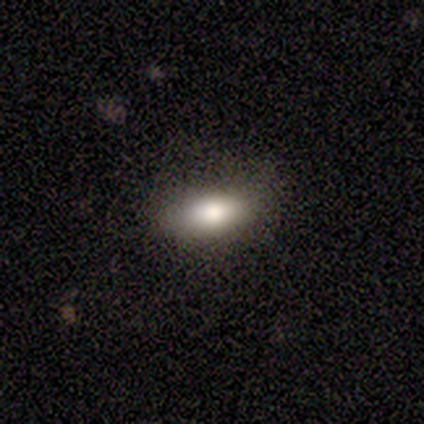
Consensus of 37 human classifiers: Smooth or featured?
  - smooth: 78% *
  - featured or disk: 16%
  - star or artifact: 5%
How rounded?
  - in between: 79% *
  - cigar-shaped: 14%
  - round: 7%
Merging?
  - none: 74% *
  - minor disturbance: 11%
  - major disturbance: 11%
  - merger: 3%